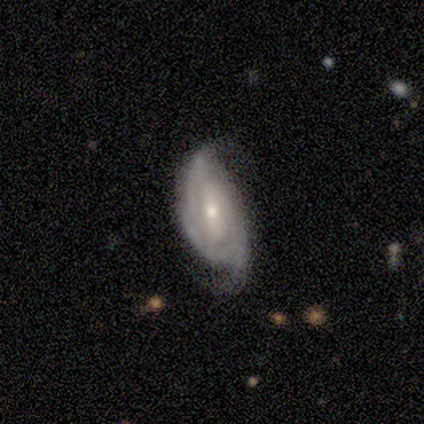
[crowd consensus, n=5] smooth_or_featured: featured or disk (p=0.80) [alt: smooth p=0.20]
disk_edge_on: no (p=1.00)
bar: weak (p=0.50) [tied with: no p=0.50]
has_spiral_arms: yes (p=1.00)
spiral_winding: tight (p=0.75) [alt: medium p=0.25]
spiral_arm_count: 2 (p=0.50) [alt: 3 p=0.25]
bulge_size: small (p=0.50) [alt: moderate p=0.25]
merging: none (p=0.80) [alt: minor disturbance p=0.20]